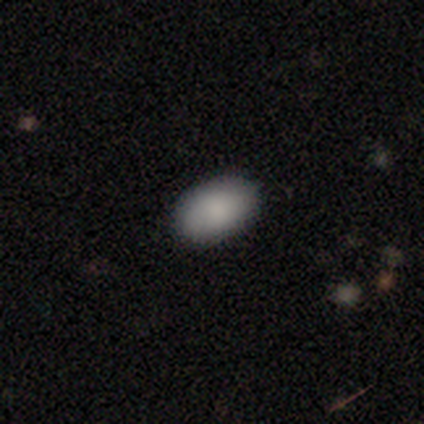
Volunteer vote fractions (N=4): This is clearly a smooth galaxy (100%). How rounded: clearly in between (100%). Merging: clearly none (100%).